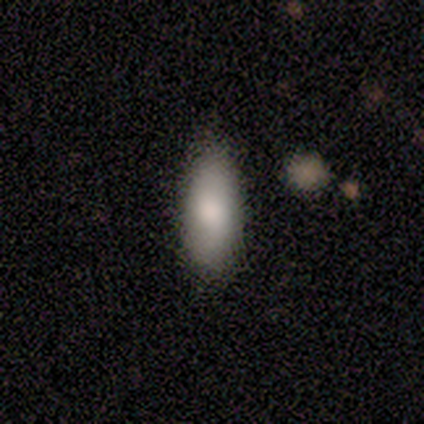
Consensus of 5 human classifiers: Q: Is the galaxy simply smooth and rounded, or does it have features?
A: smooth — 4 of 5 (80%).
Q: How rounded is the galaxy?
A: in between — 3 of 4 (75%).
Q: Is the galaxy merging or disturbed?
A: minor disturbance — 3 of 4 (75%).